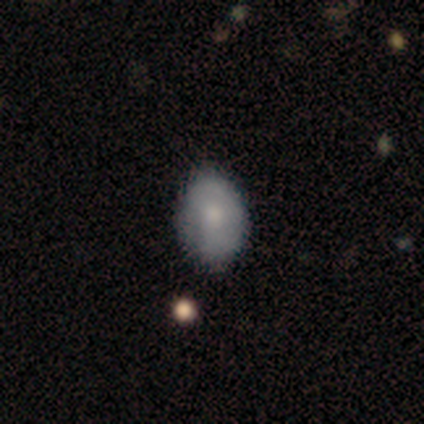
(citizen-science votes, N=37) Smooth or featured: smooth — 70% (featured or disk — 16%)
How rounded: in between — 92% (round — 8%)
Merging: none — 62% (minor disturbance — 25%)